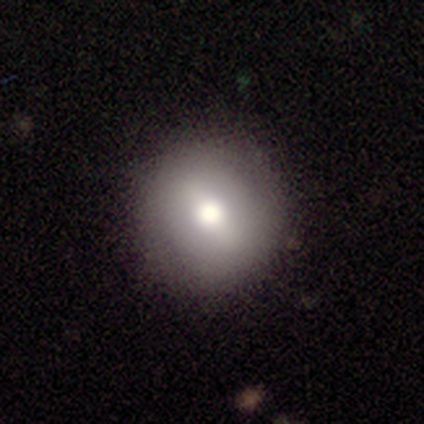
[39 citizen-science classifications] Volunteers were most divided on "smooth or featured": smooth: 54%, featured or disk: 33%, star or artifact: 13%. More confident: how rounded — round (95%); merging — none (85%).